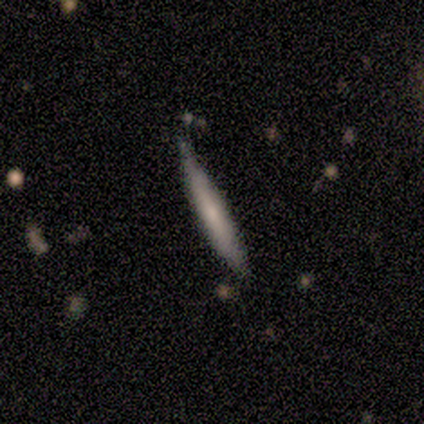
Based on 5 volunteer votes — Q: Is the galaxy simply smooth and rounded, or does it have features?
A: featured or disk — 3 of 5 (60%).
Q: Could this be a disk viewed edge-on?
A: yes — 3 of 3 (100%).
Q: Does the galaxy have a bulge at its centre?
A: rounded — 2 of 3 (67%).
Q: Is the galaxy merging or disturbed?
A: minor disturbance — 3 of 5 (60%).